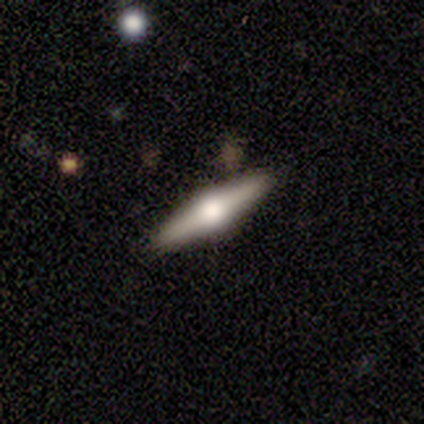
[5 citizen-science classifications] smooth_or_featured: featured or disk (p=0.80) [alt: smooth p=0.20]
disk_edge_on: yes (p=0.75) [alt: no p=0.25]
edge_on_bulge: rounded (p=1.00)
merging: none (p=0.60) [alt: minor disturbance p=0.40]